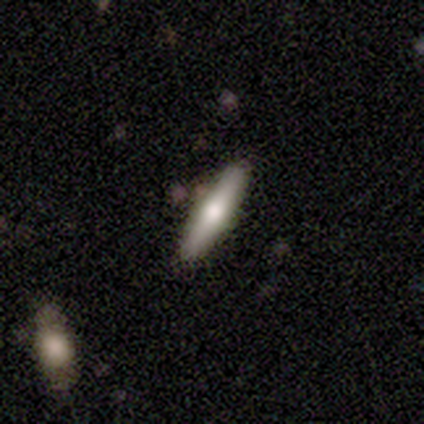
Smooth or featured? featured or disk (60%)
Edge-on disk? yes (100%)
Edge-on bulge? rounded (100%)
Merging? none (80%)